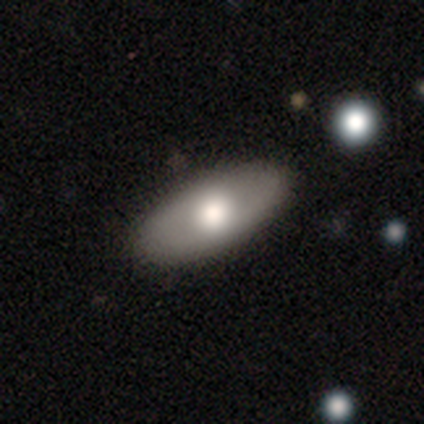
Overall: smooth (51%; featured or disk 38%). How rounded: in between (96%). Merging: none (95%).